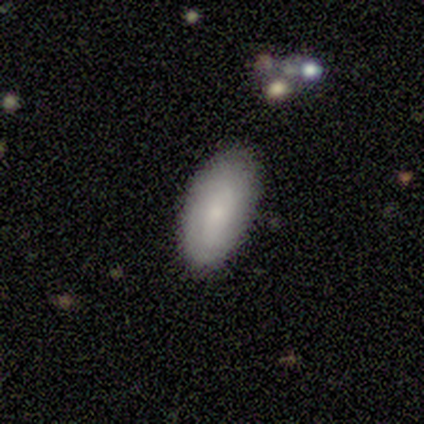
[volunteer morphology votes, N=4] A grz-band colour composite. It shows a smooth galaxy with no disk features (75%) that is in between round and cigar-shaped (100%). Merging: none (75%).